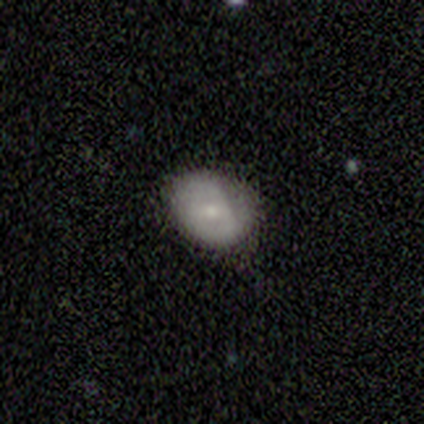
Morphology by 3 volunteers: This appears to be a smooth galaxy with no disk features (100%) that is in between round and cigar-shaped (67%). Merging: minor disturbance (67%).